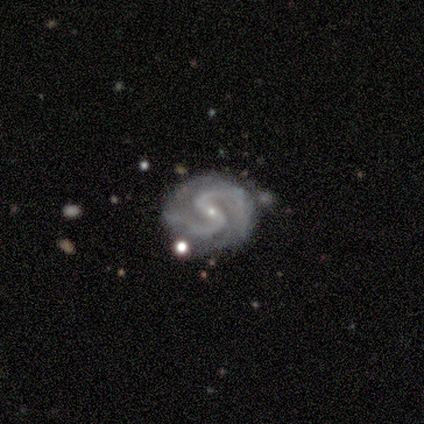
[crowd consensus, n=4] smooth-or-featured: featured or disk: 100% | smooth: 0% | star or artifact: 0%
  disk-edge-on: no: 100% | yes: 0%
    bar: strong: 75% | weak: 25% | no: 0%
    has-spiral-arms: yes: 100% | no: 0%
      spiral-winding: tight: 50% (tied) | medium: 50% (tied) | loose: 0%
      spiral-arm-count: 2: 100% | 1: 0% | 3: 0% | 4: 0% | more than 4: 0% | can't tell: 0%
    bulge-size: small: 100% | dominant: 0% | large: 0% | moderate: 0% | none: 0%
  merging: minor disturbance: 50% | none: 25% | merger: 25% | major disturbance: 0%